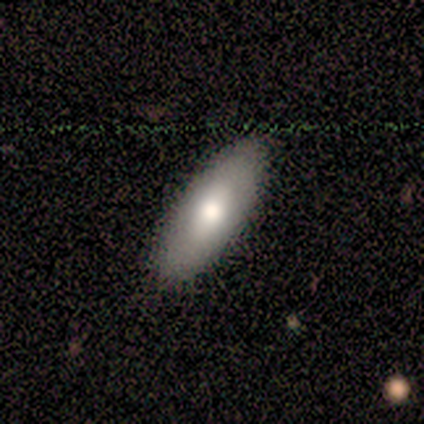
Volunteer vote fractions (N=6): Q: Smooth or featured?
A: smooth (83%); runner-up: featured or disk (17%)
Q: How rounded?
A: in between (80%); runner-up: cigar-shaped (20%)
Q: Merging?
A: none (100%)